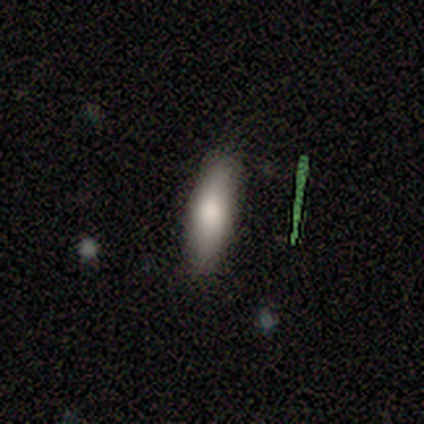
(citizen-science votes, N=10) smooth_or_featured: smooth (p=0.60) [alt: featured or disk p=0.20]
how_rounded: in between (p=0.50) [tied with: cigar-shaped p=0.50]
merging: none (p=0.88) [alt: minor disturbance p=0.12]